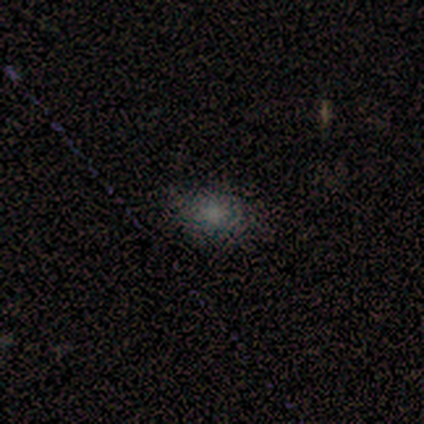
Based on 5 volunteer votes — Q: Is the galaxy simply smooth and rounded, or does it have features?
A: smooth — 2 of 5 (40%, tied with star or artifact).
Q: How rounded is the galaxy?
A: in between — 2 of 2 (100%).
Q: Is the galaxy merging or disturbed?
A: none — 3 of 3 (100%).